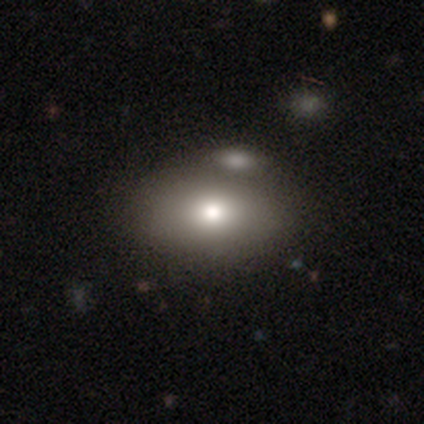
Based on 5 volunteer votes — Smooth or featured?
  - smooth: 40% * (tied)
  - featured or disk: 40% * (tied)
  - star or artifact: 20%
How rounded?
  - in between: 100% *
  - round: 0%
  - cigar-shaped: 0%
Merging?
  - none: 75% *
  - merger: 25%
  - minor disturbance: 0%
  - major disturbance: 0%